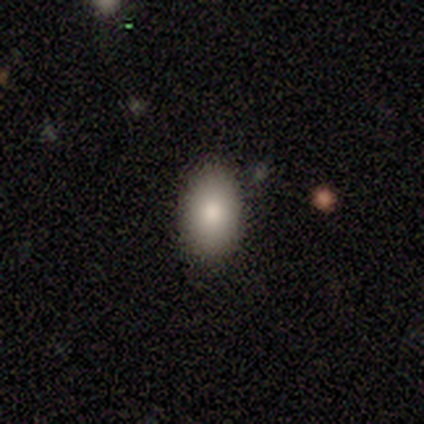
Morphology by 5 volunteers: A smooth galaxy with no disk features (100%) that is in between round and cigar-shaped (80%). Merging: none (100%).